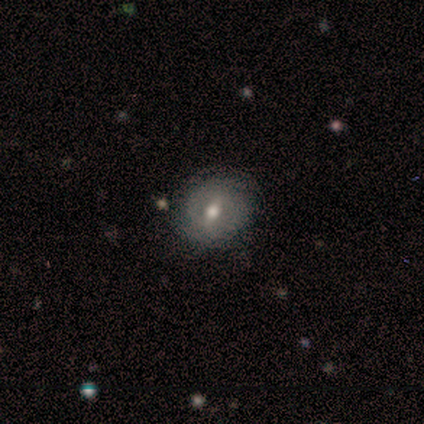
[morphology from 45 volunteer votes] smooth-or-featured: featured or disk: 53% | smooth: 38% | star or artifact: 9%
  disk-edge-on: no: 100% | yes: 0%
    bar: weak: 46% (tied) | no: 46% (tied) | strong: 8%
    has-spiral-arms: no: 67% | yes: 33%
    bulge-size: moderate: 62% | small: 25% | large: 12% | dominant: 0% | none: 0%
  merging: none: 76% | minor disturbance: 22% | major disturbance: 2% | merger: 0%